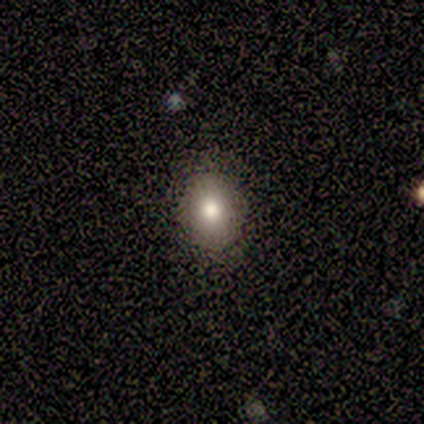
smooth-or-featured: featured or disk: 60% | smooth: 40% | star or artifact: 0%
  disk-edge-on: no: 100% | yes: 0%
    bar: no: 67% | weak: 33% | strong: 0%
    has-spiral-arms: no: 67% | yes: 33%
    bulge-size: large: 67% | moderate: 33% | dominant: 0% | small: 0% | none: 0%
  merging: none: 80% | minor disturbance: 20% | major disturbance: 0% | merger: 0%